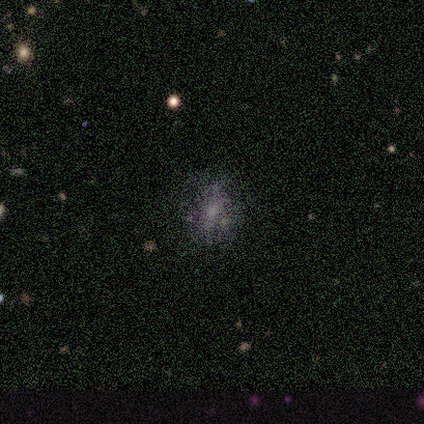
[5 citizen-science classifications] Smooth or featured? smooth (60%)
How rounded? round (67%)
Merging? none (60%)